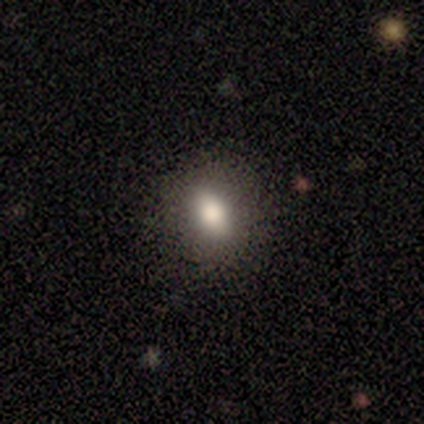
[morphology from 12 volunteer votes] Smooth or featured: smooth — 92% (featured or disk — 8%)
How rounded: in between — 100%
Merging: none — 92% (merger — 8%)